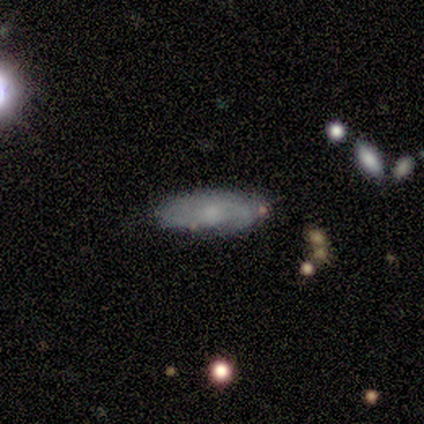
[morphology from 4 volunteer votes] type=featured or disk (75%); edge-on=no (67%); bar=no (100%); spiral arms=yes (50%, tied with no); winding=tight (100%); arm count=2 (100%); bulge=small (50%, tied with none); merging=none (50%, tied with minor disturbance).